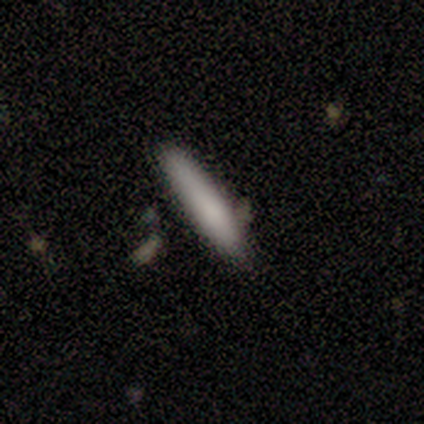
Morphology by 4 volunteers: type=smooth (100%); roundness=cigar-shaped (100%); merging=none (100%).